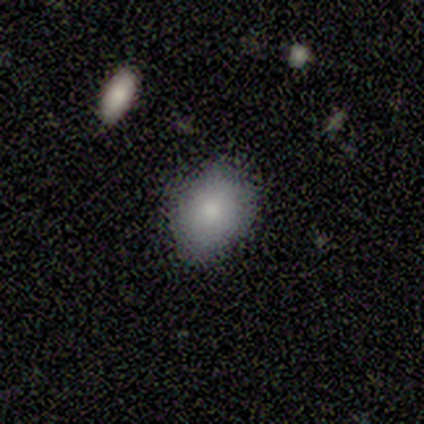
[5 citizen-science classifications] Smooth or featured? 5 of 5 (100%) said smooth. How rounded? 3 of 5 (60%) said in between. Merging? 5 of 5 (100%) said none.